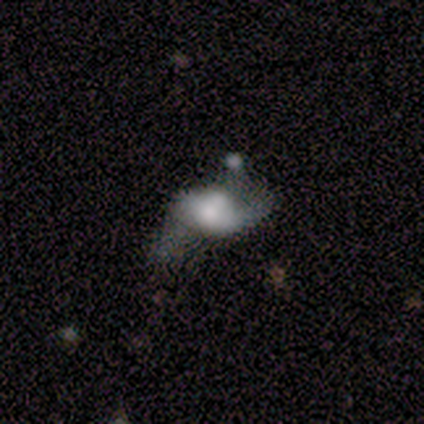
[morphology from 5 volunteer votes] This is likely a smooth galaxy (60%). How rounded: clearly in between (100%). Merging: marginally merger (40%).